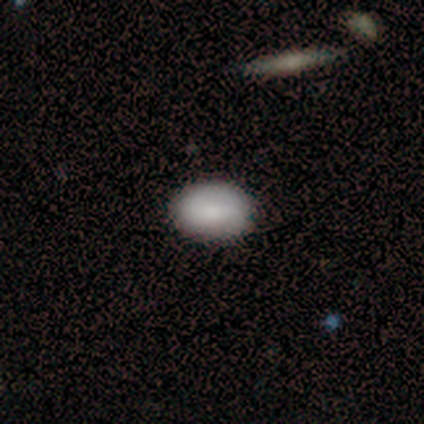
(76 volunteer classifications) Smooth or featured?
  - smooth: 79% *
  - featured or disk: 13%
  - star or artifact: 8%
How rounded?
  - in between: 82% *
  - round: 18%
  - cigar-shaped: 0%
Merging?
  - none: 47% *
  - major disturbance: 4%
  - merger: 3%
  - minor disturbance: 1%